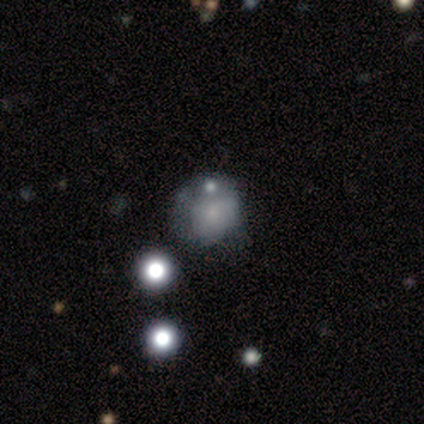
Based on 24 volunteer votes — Smooth or featured? smooth (54%)
How rounded? round (92%)
Merging? none (42%)